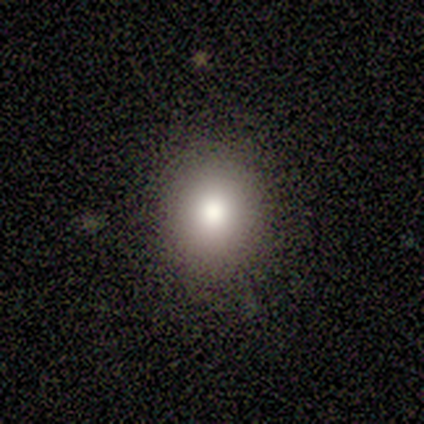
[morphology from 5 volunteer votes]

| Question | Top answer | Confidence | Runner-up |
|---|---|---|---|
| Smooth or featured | smooth | 80% | star or artifact (20%) |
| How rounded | round | 100% | — |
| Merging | none | 100% | — |